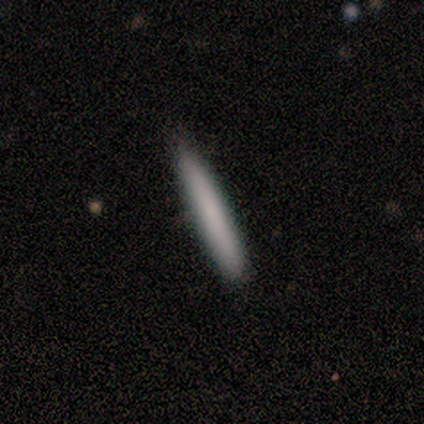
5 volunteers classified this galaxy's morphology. Overall: smooth (100%). How rounded: cigar-shaped (100%). Merging: none (80%).